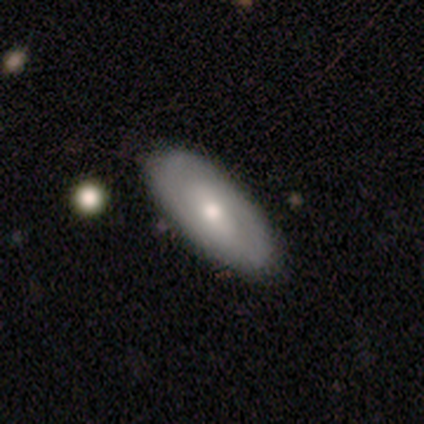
smooth-or-featured: featured or disk: 59% | smooth: 38% | star or artifact: 3%
  disk-edge-on: no: 87% | yes: 13%
    bar: weak: 45% | no: 40% | strong: 15%
    has-spiral-arms: yes: 65% | no: 35%
      spiral-winding: tight: 54% | medium: 38% | loose: 8%
      spiral-arm-count: 2: 77% | can't tell: 23% | 1: 0% | 3: 0% | 4: 0% | more than 4: 0%
    bulge-size: moderate: 55% | small: 40% | large: 5% | dominant: 0% | none: 0%
  merging: none: 61% | minor disturbance: 16% | major disturbance: 0% | merger: 0%